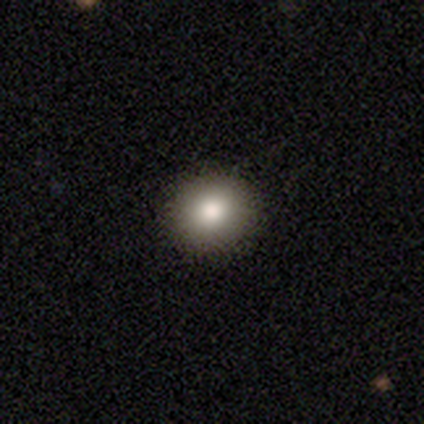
Smooth or featured? smooth (100%)
How rounded? round (80%)
Merging? none (100%)